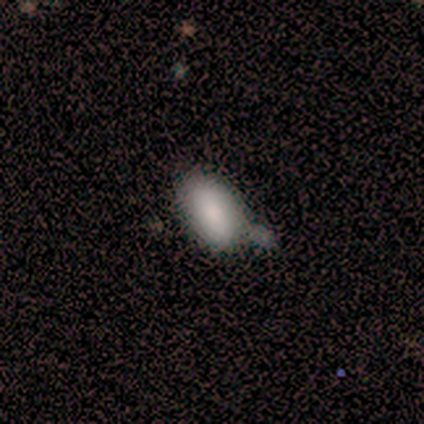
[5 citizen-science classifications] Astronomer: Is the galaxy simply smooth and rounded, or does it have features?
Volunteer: smooth — 80%.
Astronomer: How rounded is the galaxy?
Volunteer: in between — 75%.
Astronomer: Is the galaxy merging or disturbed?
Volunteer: none — 40%, tied with minor disturbance at 40%.